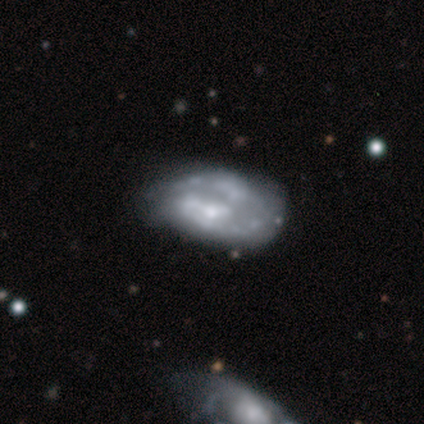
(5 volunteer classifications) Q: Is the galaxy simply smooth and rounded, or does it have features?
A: featured or disk — 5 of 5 (100%).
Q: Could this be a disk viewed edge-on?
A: no — 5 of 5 (100%).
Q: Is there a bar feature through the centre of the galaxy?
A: no — 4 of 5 (80%).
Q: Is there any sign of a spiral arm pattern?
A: yes — 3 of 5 (60%).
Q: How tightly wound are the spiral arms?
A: medium — 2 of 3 (67%).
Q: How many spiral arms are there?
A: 1 — 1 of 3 (33%, tied with 2 and can't tell).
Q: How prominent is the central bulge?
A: none — 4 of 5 (80%).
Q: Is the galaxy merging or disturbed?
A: none — 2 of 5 (40%, tied with major disturbance).